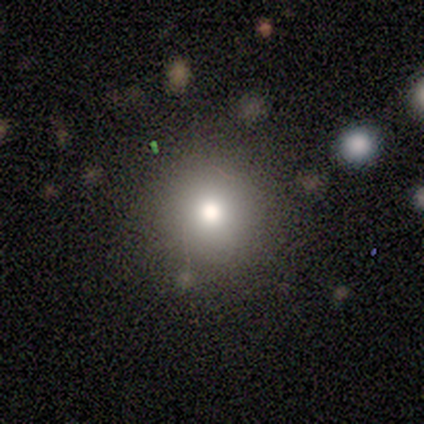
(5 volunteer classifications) A smooth galaxy with no disk features (100%) that is round (100%). Merging: none (100%).